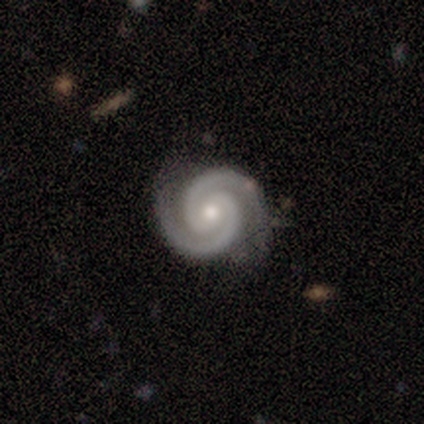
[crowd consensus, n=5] Smooth or featured: featured or disk — 100%
Edge-on disk: no — 100%
Bar: no — 60% (weak — 40%)
Spiral arms: yes — 100%
Spiral winding: tight — 100%
Spiral arm count: 2 — 100%
Bulge size: moderate — 80% (small — 20%)
Merging: none — 80% (major disturbance — 20%)